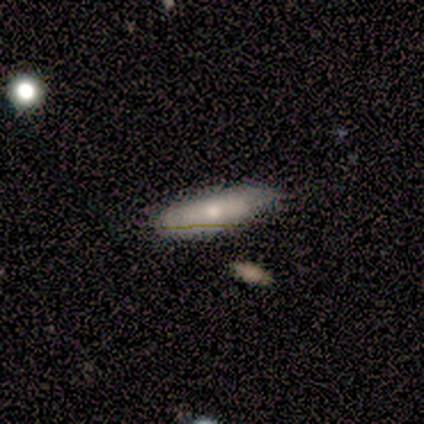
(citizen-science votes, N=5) This is likely a featured or disk galaxy (60%). It is likely not viewed edge-on (67%). Bar: possibly weak (50%, tied with no). Spiral arm pattern: possibly yes (50%, tied with no). Spiral arm count: clearly can't tell (100%). Spiral winding: clearly tight (100%). Central bulge: possibly moderate (50%, tied with small). Merging: clearly none (80%).